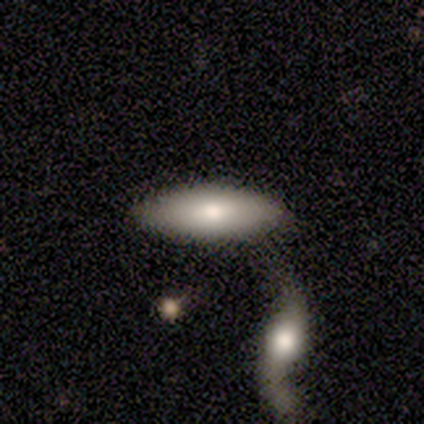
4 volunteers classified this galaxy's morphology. This is likely a smooth galaxy (75%). How rounded: likely in between (67%). Merging: possibly none (50%).